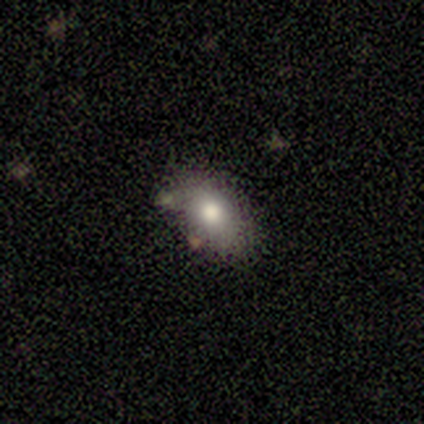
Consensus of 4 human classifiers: Smooth or featured? smooth (75%)
How rounded? in between (67%)
Merging? none (75%)